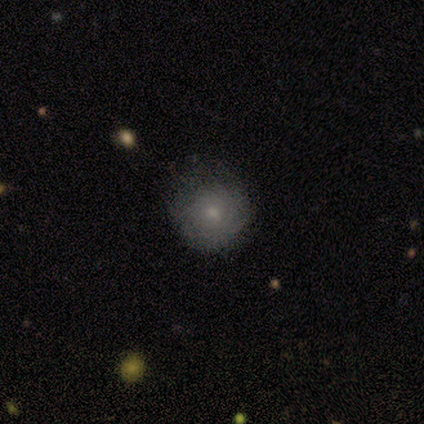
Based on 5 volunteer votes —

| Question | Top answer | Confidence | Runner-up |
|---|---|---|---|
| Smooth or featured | featured or disk | 60% | smooth (40%) |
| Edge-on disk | no | 100% | — |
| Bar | no | 67% | weak (33%) |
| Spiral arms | yes | 100% | — |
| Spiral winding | tight | 100% | — |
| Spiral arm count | can't tell | 67% | 3 (33%) |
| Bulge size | small | 67% | moderate (33%) |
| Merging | none | 60% | minor disturbance (20%) |